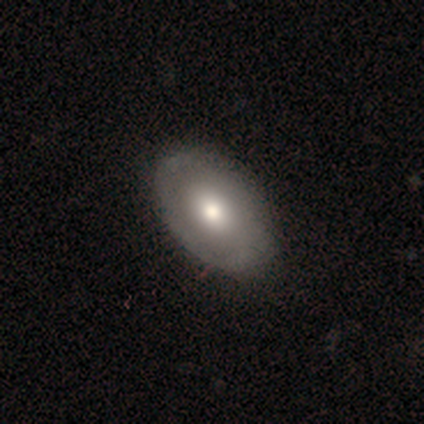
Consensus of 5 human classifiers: Smooth or featured? 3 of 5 (60%) said featured or disk. Edge-on disk? 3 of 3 (100%) said no. Bar? 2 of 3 (67%) said weak. Spiral arms? 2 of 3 (67%) said no. Bulge size? 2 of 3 (67%) said moderate. Merging? 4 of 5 (80%) said none.